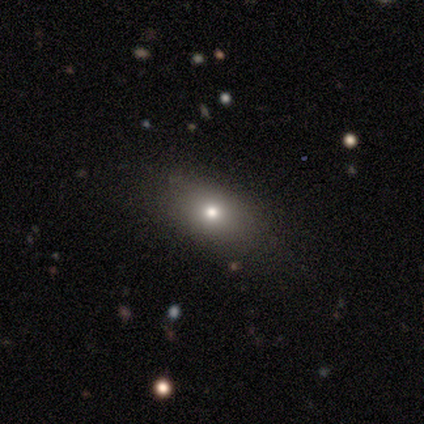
A smooth galaxy with no disk features (100%) that is in between round and cigar-shaped (80%).

Vote fractions:
- Smooth or featured? smooth: 100% / featured or disk: 0% / star or artifact: 0%
- How rounded? in between: 80% / round: 20% / cigar-shaped: 0%
- Merging? none: 80% / minor disturbance: 20% / major disturbance: 0% / merger: 0%